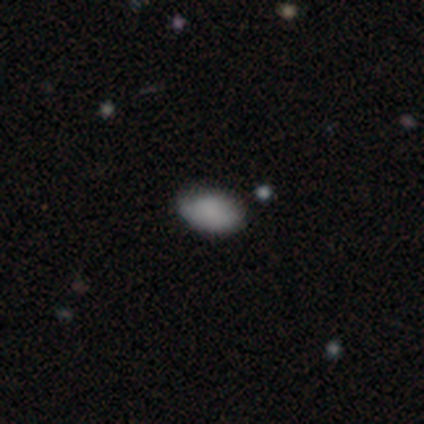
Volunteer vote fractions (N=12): Morphology: type=smooth (92%); roundness=in between (100%); merging=none (73%).